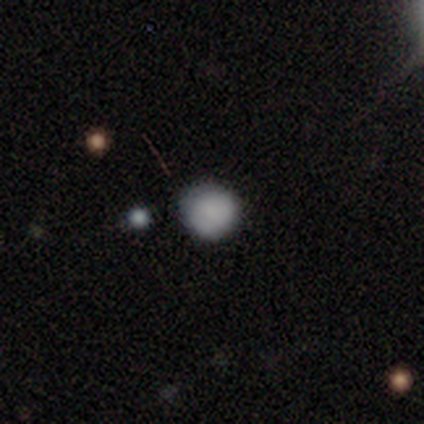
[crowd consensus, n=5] smooth 100%, featured or disk 0%, star or artifact 0%. Down the decision tree: how rounded — round (100%); merging — none (100%).